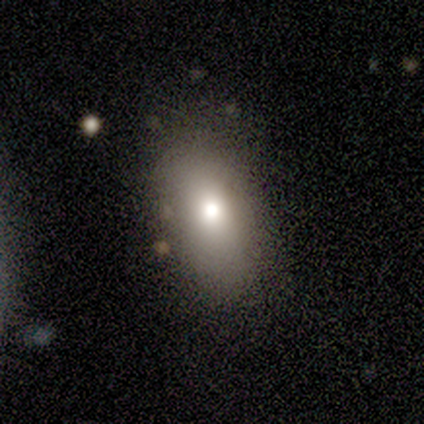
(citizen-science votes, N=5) Volunteers were most divided on "smooth or featured": smooth: 60%, star or artifact: 40%, featured or disk: 0%. More confident: how rounded — in between (100%); merging — none (100%).